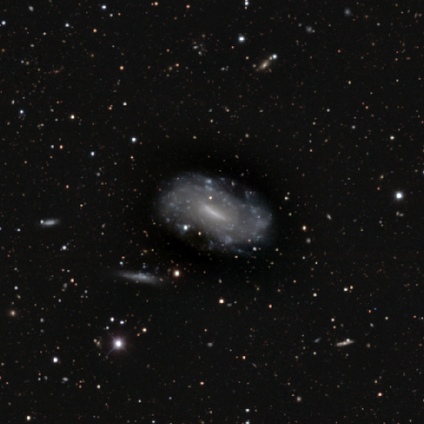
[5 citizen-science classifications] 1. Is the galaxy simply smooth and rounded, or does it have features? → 100% featured or disk, 0% smooth, 0% star or artifact.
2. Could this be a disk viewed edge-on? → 100% no, 0% yes.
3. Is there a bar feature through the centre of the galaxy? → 40% strong (tied), 40% no (tied), 20% weak.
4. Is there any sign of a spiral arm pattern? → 100% no, 0% yes.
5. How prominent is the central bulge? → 40% moderate (tied), 40% none (tied), 20% small, 0% dominant, 0% large.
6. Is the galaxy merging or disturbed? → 60% none, 20% minor disturbance, 20% major disturbance, 0% merger.